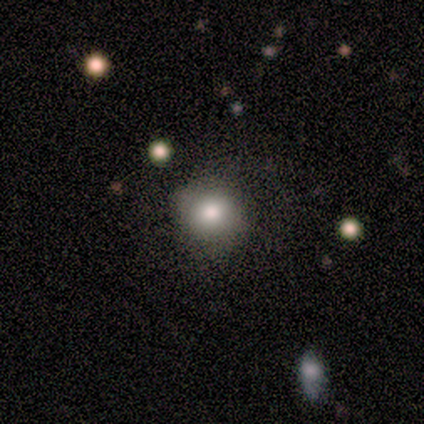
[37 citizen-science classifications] This appears to be a smooth galaxy with no disk features (76%) that is round (82%). Merging: none (71%).